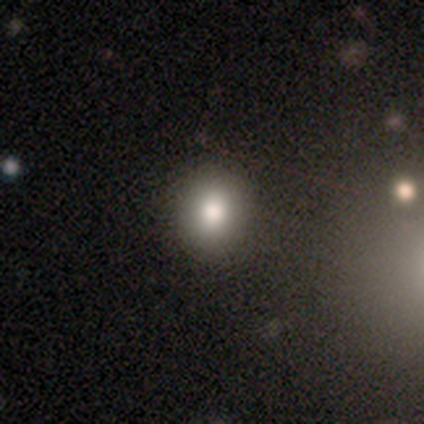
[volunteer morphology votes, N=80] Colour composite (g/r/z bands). It shows a smooth galaxy with no disk features (84%) that is round (76%). Merging: none (47%).